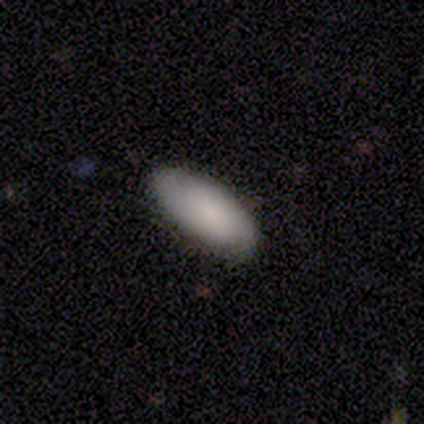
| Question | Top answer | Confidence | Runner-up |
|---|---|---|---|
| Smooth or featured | smooth | 68% | featured or disk (32%) |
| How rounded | in between | 89% | cigar-shaped (7%) |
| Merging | none | 82% | minor disturbance (2%) |